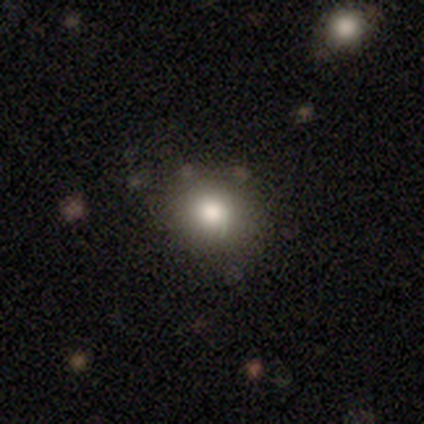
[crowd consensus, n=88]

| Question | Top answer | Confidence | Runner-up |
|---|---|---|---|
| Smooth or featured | smooth | 68% | star or artifact (19%) |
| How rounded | round | 78% | in between (22%) |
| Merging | none | 82% | minor disturbance (17%) |